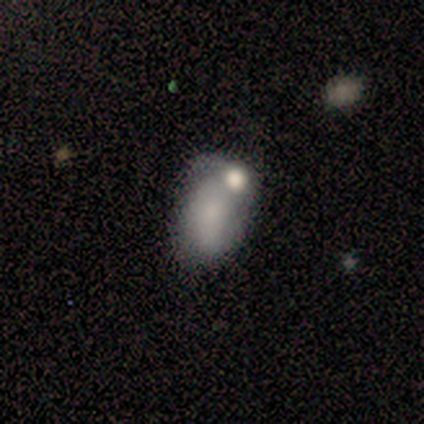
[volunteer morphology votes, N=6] type=smooth (50%, tied with featured or disk); roundness=in between (100%); merging=merger (50%).